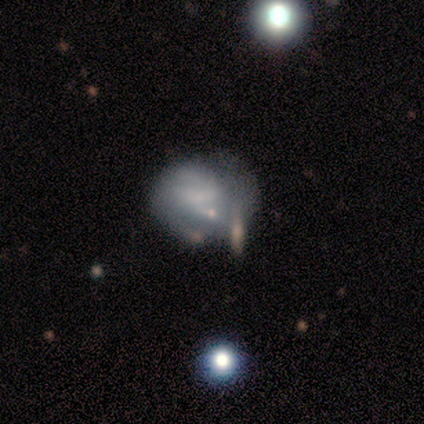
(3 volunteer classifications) Q: Smooth or featured?
A: featured or disk (67%); runner-up: smooth (33%)
Q: Edge-on disk?
A: no (100%)
Q: Bar?
A: no (100%)
Q: Spiral arms?
A: no (100%)
Q: Bulge size?
A: dominant (50%); tied with: none (50%)
Q: Merging?
A: none (33%); tied with: minor disturbance (33%); major disturbance (33%)